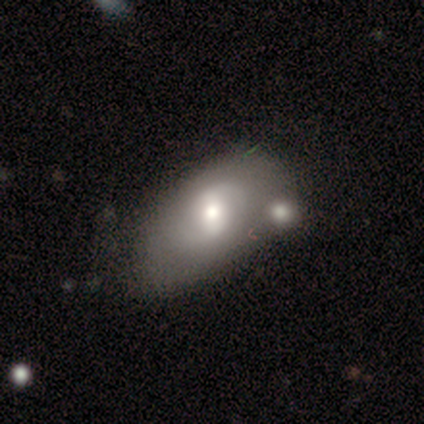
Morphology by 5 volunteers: Volunteers were most divided on "smooth or featured": featured or disk: 60%, smooth: 40%, star or artifact: 0%. More confident: edge-on disk — no (100%); spiral winding — tight (100%); spiral arm count — 2 (100%); bulge size — moderate (100%); bar — weak (67%); spiral arms — yes (67%); merging — none (60%).